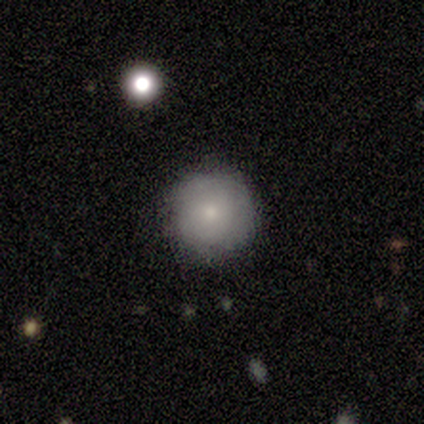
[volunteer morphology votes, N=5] Smooth or featured? 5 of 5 (100%) said smooth. How rounded? 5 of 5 (100%) said round. Merging? 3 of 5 (60%) said none.